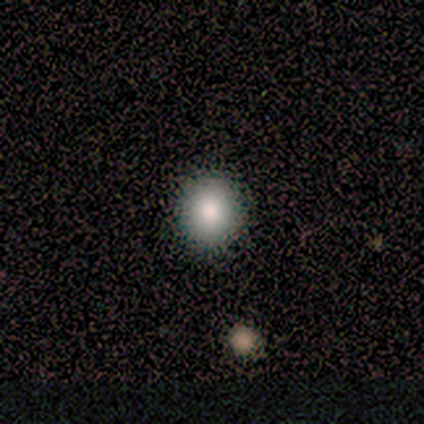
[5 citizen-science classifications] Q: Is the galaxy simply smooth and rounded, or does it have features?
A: smooth — 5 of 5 (100%).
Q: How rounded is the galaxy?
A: round — 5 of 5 (100%).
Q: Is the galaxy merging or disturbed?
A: none — 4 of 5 (80%).